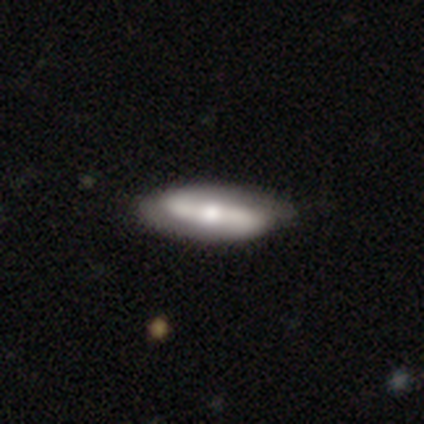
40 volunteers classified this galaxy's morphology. Overall: featured or disk (82%). Edge-on disk: no (73%). Bar: strong (46%; no 29%). Spiral arms: yes (96%). Spiral arm count: 2 (87%). Spiral winding: loose (52%; tight 35%). Bulge size: moderate (54%; large 21%). Merging: none (37%; minor disturbance 21%).